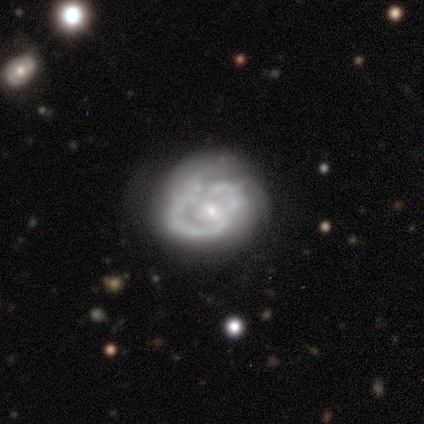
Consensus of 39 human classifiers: Smooth or featured? 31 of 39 (79%) said featured or disk. Edge-on disk? 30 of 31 (97%) said no. Bar? 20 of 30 (67%) said no. Spiral arms? 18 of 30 (60%) said yes. Spiral winding? 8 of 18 (44%) said medium. Spiral arm count? 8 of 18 (44%) said can't tell. Bulge size? 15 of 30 (50%) said small. Merging? 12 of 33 (36%) said none.